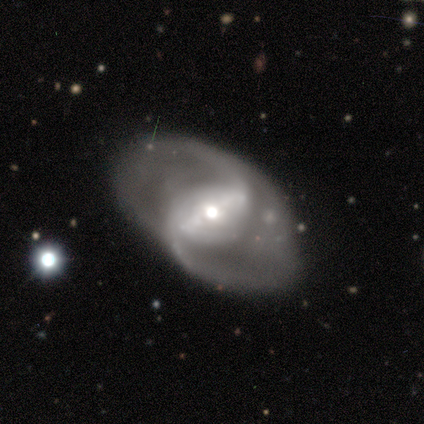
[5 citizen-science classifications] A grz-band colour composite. It shows a featured or disk galaxy (100%) with a strong bar (80%), 2 (100%) medium (80%) spiral arms (100%) and a moderate central bulge (60%). Merging: none (80%).